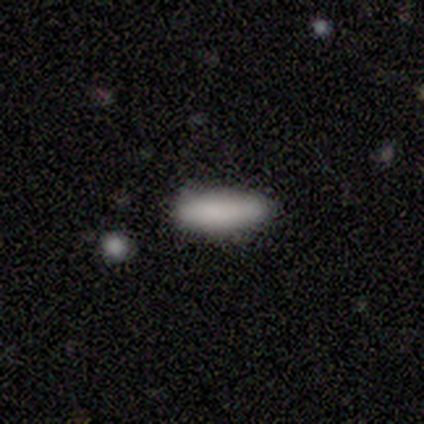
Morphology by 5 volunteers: smooth-or-featured: smooth: 80% | star or artifact: 20% | featured or disk: 0%
  how-rounded: in between: 75% | cigar-shaped: 25% | round: 0%
  merging: none: 75% | minor disturbance: 25% | major disturbance: 0% | merger: 0%